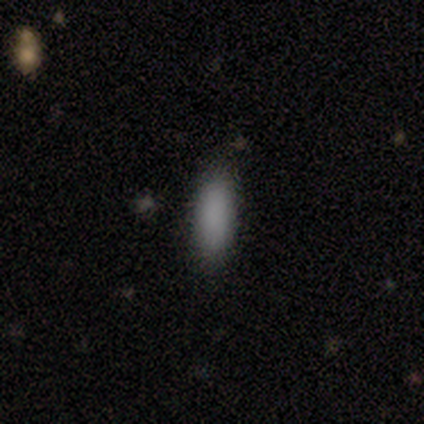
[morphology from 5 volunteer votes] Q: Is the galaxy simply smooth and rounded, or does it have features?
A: smooth — 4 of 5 (80%).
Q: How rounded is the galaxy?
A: in between — 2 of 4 (50%, tied with cigar-shaped).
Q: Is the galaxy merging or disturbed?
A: none — 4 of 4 (100%).